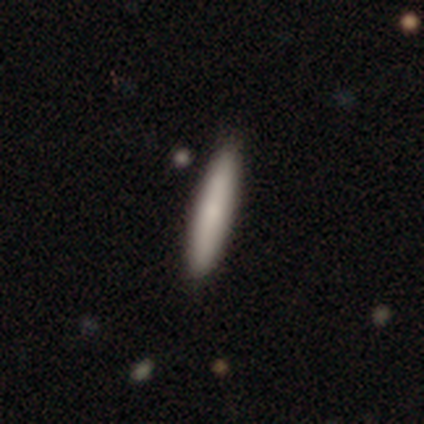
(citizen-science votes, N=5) Q: Smooth or featured?
A: smooth (100%)
Q: How rounded?
A: cigar-shaped (60%); runner-up: in between (40%)
Q: Merging?
A: none (100%)